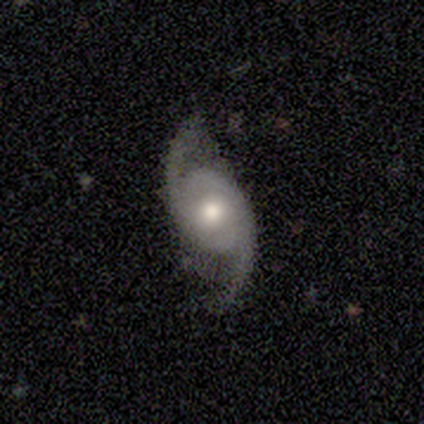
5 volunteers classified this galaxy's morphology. Volunteers were most divided on "bar" (2-way tie): weak: 50%, no: 50%, strong: 0%. More confident: edge-on disk — no (100%); spiral arms — yes (100%); spiral arm count — 2 (100%); smooth or featured — featured or disk (80%); merging — none (80%); spiral winding — loose (75%); bulge size — moderate (75%).